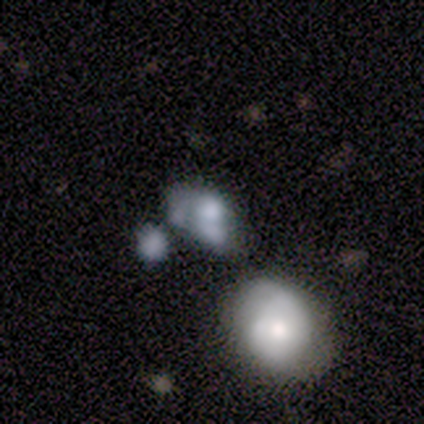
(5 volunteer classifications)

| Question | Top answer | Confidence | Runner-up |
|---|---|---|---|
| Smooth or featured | smooth | 100% | — |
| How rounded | round | 60% | in between (40%) |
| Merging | none | 40% | tied: merger (40%) |